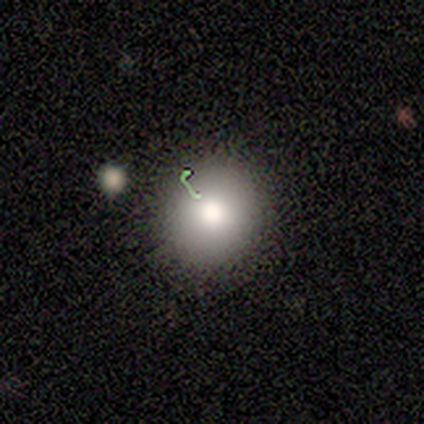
smooth 60%, featured or disk 20%, star or artifact 20%. Down the decision tree: how rounded — round (100%); merging — none (50%, tied with minor disturbance).